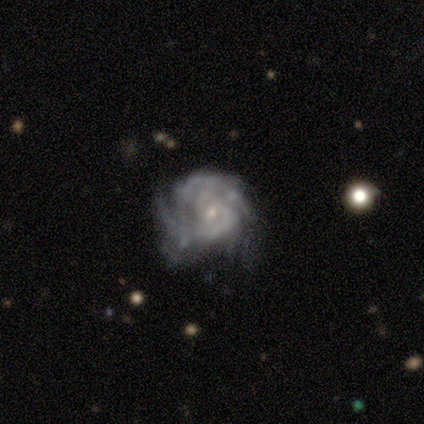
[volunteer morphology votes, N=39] This is clearly a featured or disk galaxy (90%). It is clearly not viewed edge-on (100%). Bar: clearly no (83%). Spiral arm pattern: clearly yes (94%). Spiral arm count: marginally 3 (33%). Spiral winding: likely tight (64%). Central bulge: likely small (77%). Merging: possibly minor disturbance (49%).